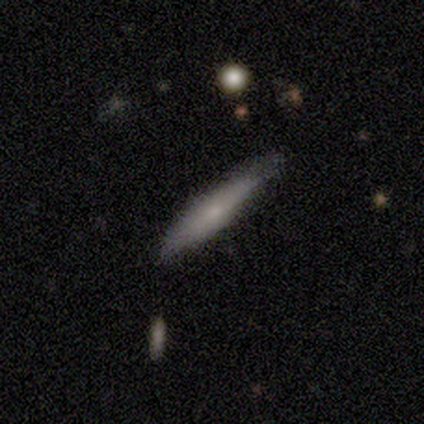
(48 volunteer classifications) A smooth galaxy with no disk features (52%) that is cigar-shaped (84%). Merging: none (64%).